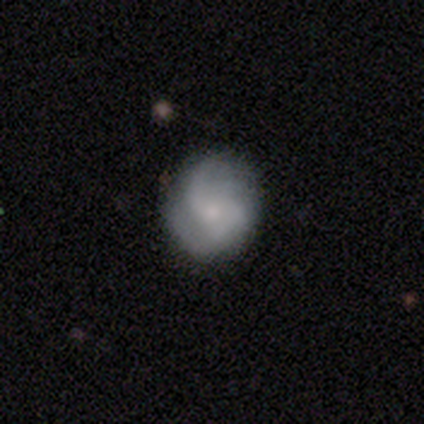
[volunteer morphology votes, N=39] Smooth or featured: featured or disk — 56% (smooth — 38%)
Edge-on disk: no — 100%
Bar: no — 77% (weak — 23%)
Spiral arms: yes — 95% (no — 5%)
Spiral winding: medium — 43% (tied with loose — 43%)
Spiral arm count: 2 — 48% (can't tell — 38%)
Bulge size: small — 64% (moderate — 23%)
Merging: none — 76% (minor disturbance — 14%)